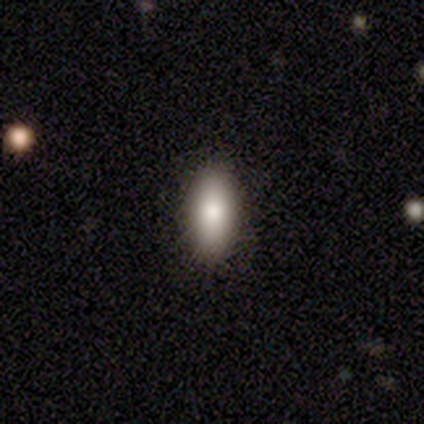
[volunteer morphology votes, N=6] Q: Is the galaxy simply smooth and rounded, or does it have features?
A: smooth — 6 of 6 (100%).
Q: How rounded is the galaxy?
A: in between — 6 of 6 (100%).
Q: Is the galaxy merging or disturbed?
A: none — 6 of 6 (100%).